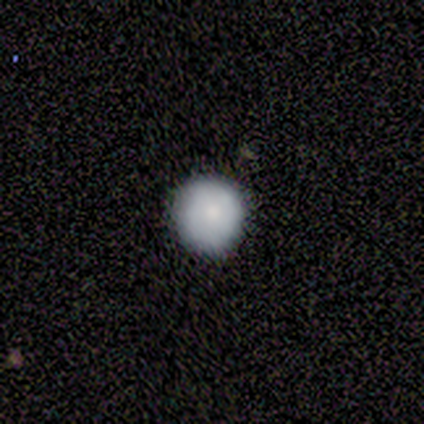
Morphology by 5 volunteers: smooth-or-featured: smooth: 100% | featured or disk: 0% | star or artifact: 0%
  how-rounded: round: 100% | in between: 0% | cigar-shaped: 0%
  merging: none: 80% | minor disturbance: 20% | major disturbance: 0% | merger: 0%